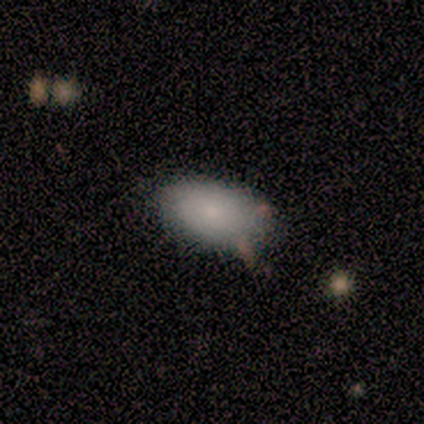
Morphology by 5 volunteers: smooth 100%, featured or disk 0%, star or artifact 0%. Down the decision tree: how rounded — in between (100%); merging — none (100%).